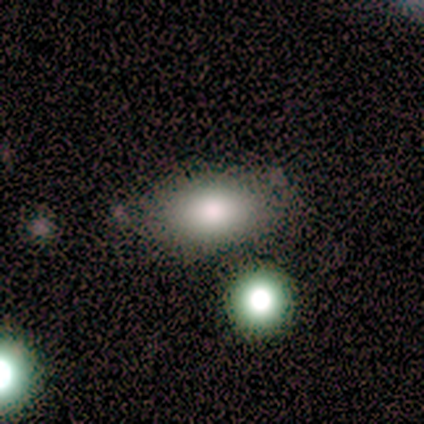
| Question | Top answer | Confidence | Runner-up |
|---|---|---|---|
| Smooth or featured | smooth | 80% | featured or disk (20%) |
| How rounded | in between | 100% | — |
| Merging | none | 80% | major disturbance (20%) |